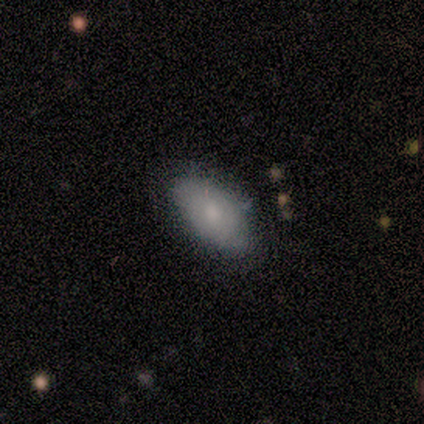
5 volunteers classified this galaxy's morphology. Smooth or featured: smooth — 100%
How rounded: in between — 100%
Merging: none — 60% (minor disturbance — 40%)